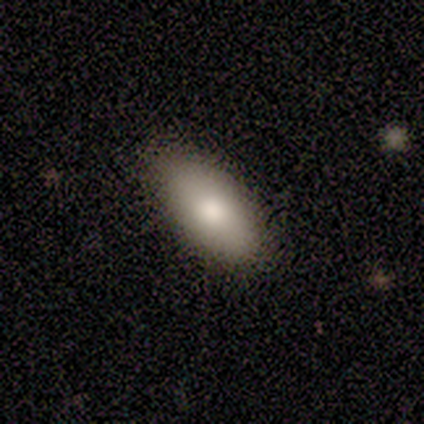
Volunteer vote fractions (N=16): Smooth or featured? 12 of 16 (75%) said smooth. How rounded? 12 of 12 (100%) said in between. Merging? 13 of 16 (81%) said none.